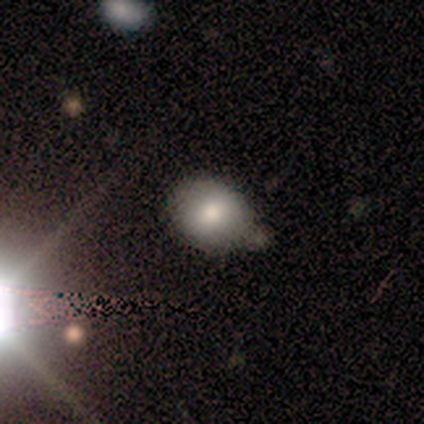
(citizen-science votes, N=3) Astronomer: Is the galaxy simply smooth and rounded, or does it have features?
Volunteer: star or artifact — 67%.